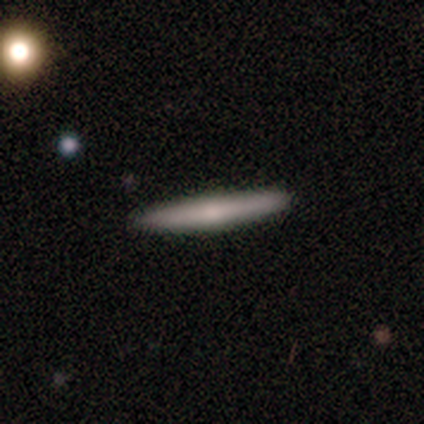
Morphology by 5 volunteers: Q: Smooth or featured?
A: smooth (60%); runner-up: featured or disk (40%)
Q: How rounded?
A: cigar-shaped (100%)
Q: Merging?
A: none (80%); runner-up: minor disturbance (20%)